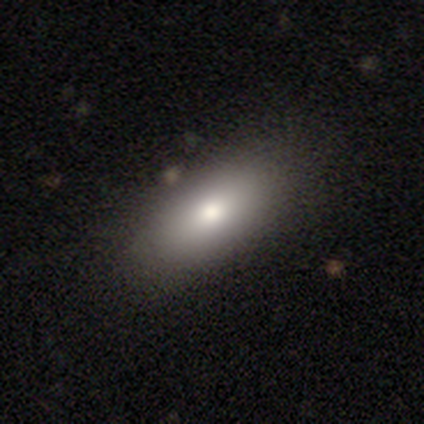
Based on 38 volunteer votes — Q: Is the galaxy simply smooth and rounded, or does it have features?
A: smooth — 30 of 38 (79%).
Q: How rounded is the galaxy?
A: in between — 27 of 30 (90%).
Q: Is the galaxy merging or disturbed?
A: none — 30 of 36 (83%).